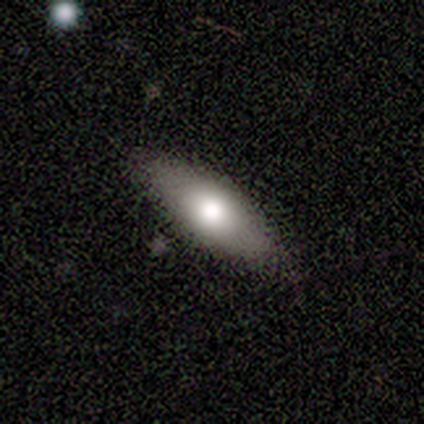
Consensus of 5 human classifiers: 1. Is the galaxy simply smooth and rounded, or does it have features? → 100% smooth, 0% featured or disk, 0% star or artifact.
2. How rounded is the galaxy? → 60% in between, 40% cigar-shaped, 0% round.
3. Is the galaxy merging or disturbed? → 80% none, 20% minor disturbance, 0% major disturbance, 0% merger.